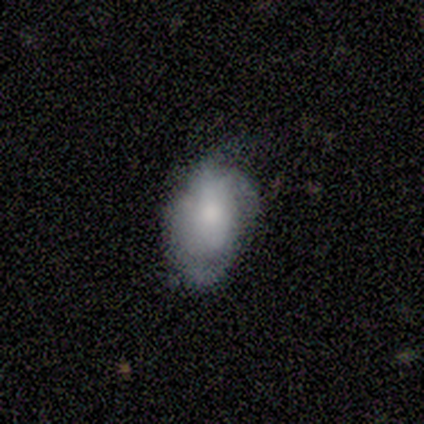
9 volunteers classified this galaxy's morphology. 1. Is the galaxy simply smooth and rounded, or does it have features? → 67% featured or disk, 33% smooth, 0% star or artifact.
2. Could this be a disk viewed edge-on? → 100% no, 0% yes.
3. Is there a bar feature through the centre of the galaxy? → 67% no, 33% weak, 0% strong.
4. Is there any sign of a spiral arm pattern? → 67% yes, 33% no.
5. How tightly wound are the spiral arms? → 50% tight, 25% medium, 25% loose.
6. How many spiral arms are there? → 50% can't tell, 25% 3, 25% 4, 0% 1, 0% 2, 0% more than 4.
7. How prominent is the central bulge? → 33% moderate (tied), 33% small (tied), 17% large, 17% none, 0% dominant.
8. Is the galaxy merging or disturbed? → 56% minor disturbance, 22% none, 22% major disturbance, 0% merger.